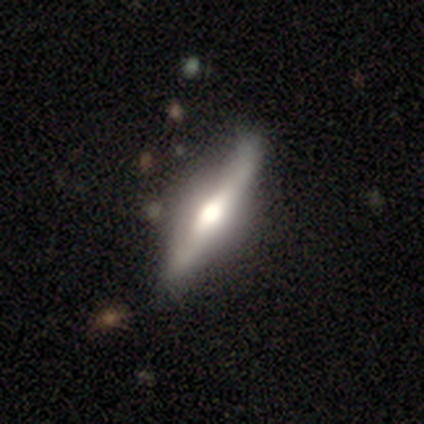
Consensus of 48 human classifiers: Smooth or featured? featured or disk (77%)
Edge-on disk? yes (95%)
Edge-on bulge? rounded (100%)
Merging? none (74%)